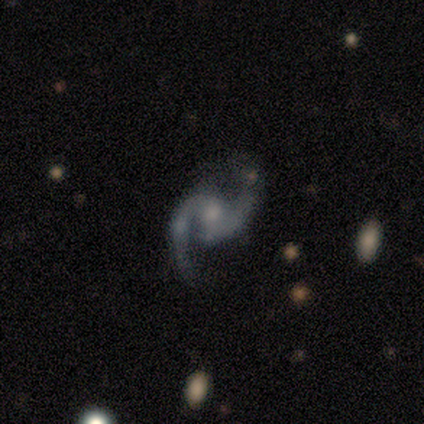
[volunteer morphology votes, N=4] This appears to be a featured or disk galaxy (100%) with a weak bar (75%), 2 (100%) medium (67%) spiral arms (75%) and a moderate central bulge (50%, tied with small). Merging: none (50%).